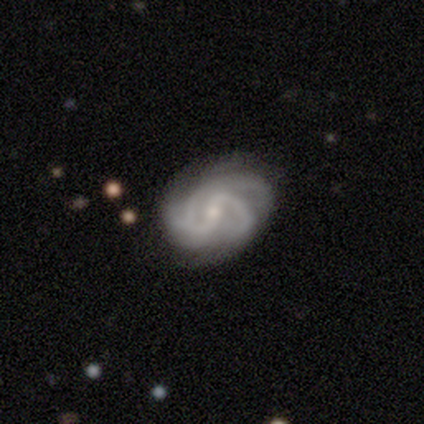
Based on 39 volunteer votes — Overall: featured or disk (100%). Edge-on disk: no (100%). Bar: weak (69%). Spiral arms: yes (100%). Spiral arm count: 3 (41%; 2 26%). Spiral winding: medium (49%; tight 33%). Bulge size: small (67%). Merging: none (56%; minor disturbance 18%).